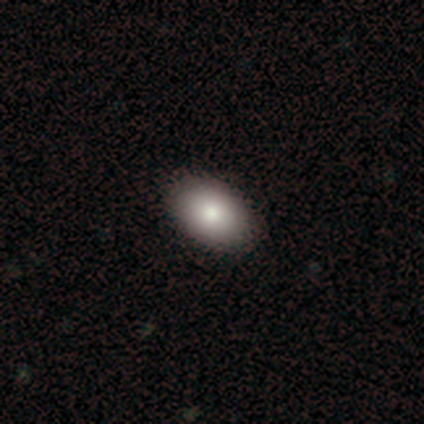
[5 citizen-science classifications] smooth 60%, featured or disk 40%, star or artifact 0%. Down the decision tree: how rounded — in between (100%); merging — none (100%).